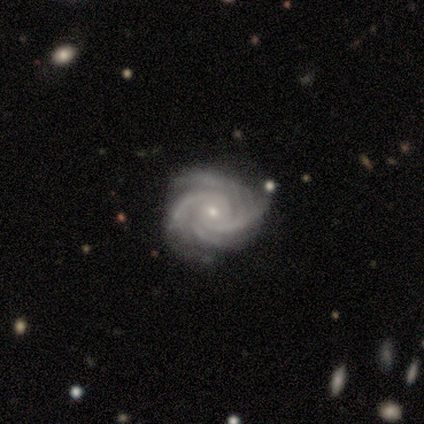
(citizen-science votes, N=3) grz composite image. It shows a featured or disk galaxy (100%) with no bar (100%), 4 (67%) medium (67%) spiral arms (100%) and a small central bulge (100%). Merging: none (100%).